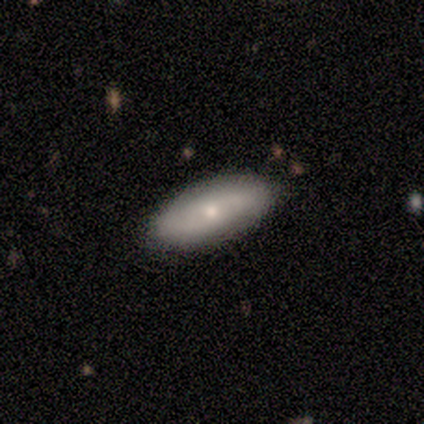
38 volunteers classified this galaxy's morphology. smooth 63%, featured or disk 34%, star or artifact 3%. Down the decision tree: how rounded — in between (83%); merging — none (49%).